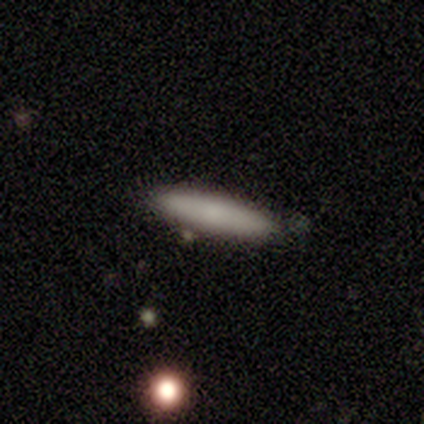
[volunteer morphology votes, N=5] type=smooth (80%); roundness=cigar-shaped (100%); merging=none (60%).